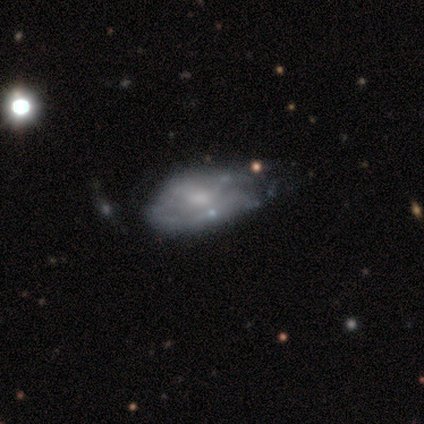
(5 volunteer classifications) Overall: featured or disk (80%). Edge-on disk: no (75%). Bar: weak (67%; no 33%). Spiral arms: yes (67%; no 33%). Spiral arm count: 2 (50%, tied with can't tell). Spiral winding: tight (100%). Bulge size: moderate (67%; small 33%). Merging: minor disturbance (40%; none 20%).